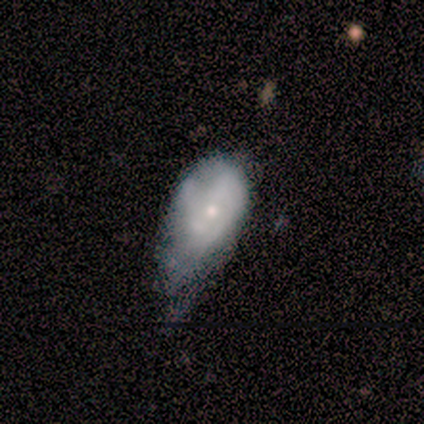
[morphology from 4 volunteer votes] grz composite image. It shows a smooth galaxy with no disk features (75%) that is in between round and cigar-shaped (67%). Merging: major disturbance (50%).